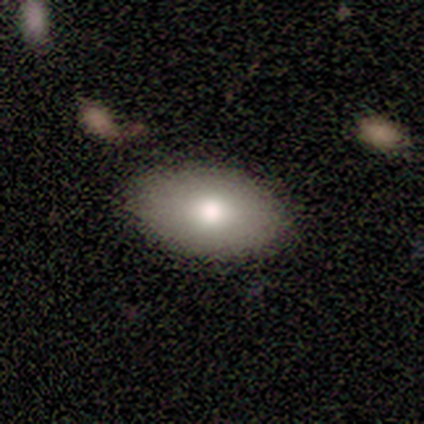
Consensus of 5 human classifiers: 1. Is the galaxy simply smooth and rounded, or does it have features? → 80% smooth, 20% featured or disk, 0% star or artifact.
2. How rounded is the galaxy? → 75% in between, 25% round, 0% cigar-shaped.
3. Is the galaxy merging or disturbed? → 80% none, 20% minor disturbance, 0% major disturbance, 0% merger.